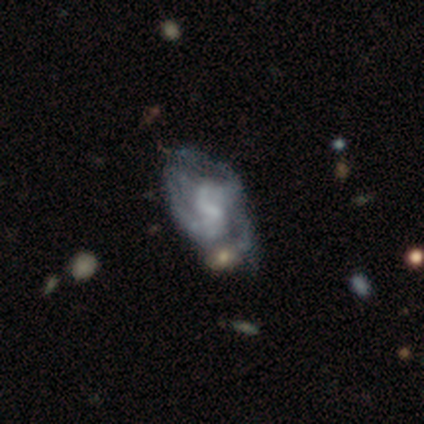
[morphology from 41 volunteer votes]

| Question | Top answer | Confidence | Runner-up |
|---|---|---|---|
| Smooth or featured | featured or disk | 85% | smooth (12%) |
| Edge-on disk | no | 94% | yes (6%) |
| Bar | weak | 61% | no (27%) |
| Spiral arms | yes | 88% | no (12%) |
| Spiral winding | medium | 45% | loose (34%) |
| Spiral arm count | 2 | 48% | can't tell (28%) |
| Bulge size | small | 39% | moderate (27%) |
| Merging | major disturbance | 25% | none (22%) |